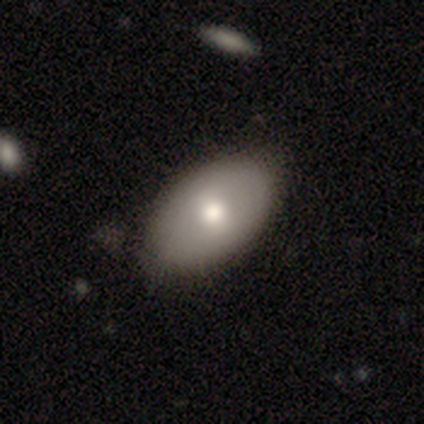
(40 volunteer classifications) This is likely a smooth galaxy (65%). How rounded: clearly in between (92%). Merging: possibly none (58%).